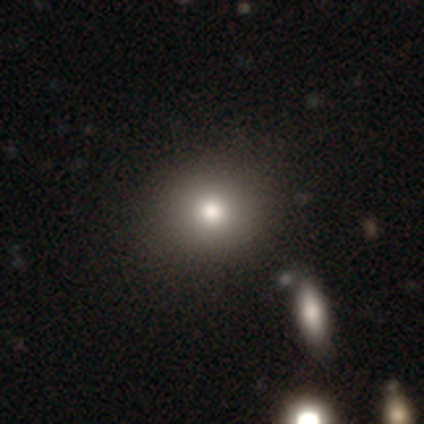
Smooth or featured: smooth — 78% (star or artifact — 14%)
How rounded: round — 83% (in between — 17%)
Merging: none — 94% (major disturbance — 3%)